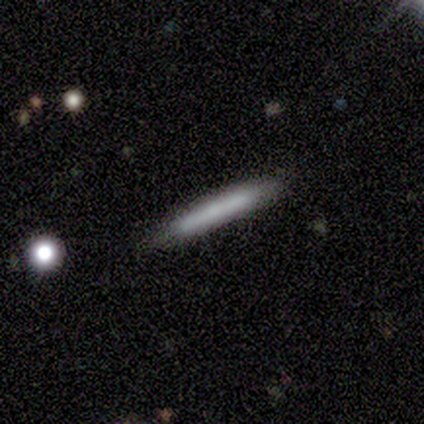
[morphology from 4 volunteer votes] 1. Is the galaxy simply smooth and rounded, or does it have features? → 50% smooth (tied), 50% featured or disk (tied), 0% star or artifact.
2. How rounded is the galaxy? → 100% cigar-shaped, 0% round, 0% in between.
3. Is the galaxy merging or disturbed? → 100% none, 0% minor disturbance, 0% major disturbance, 0% merger.